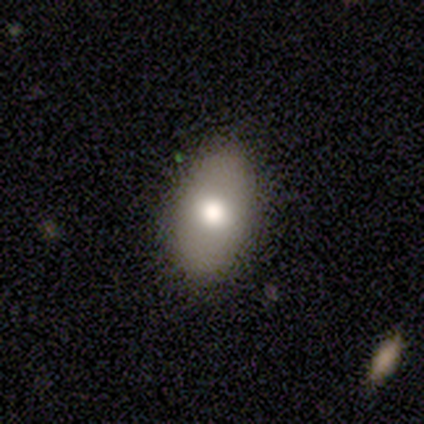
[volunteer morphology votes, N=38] Smooth or featured: smooth — 82% (featured or disk — 18%)
How rounded: in between — 87% (round — 10%)
Merging: none — 82% (minor disturbance — 13%)